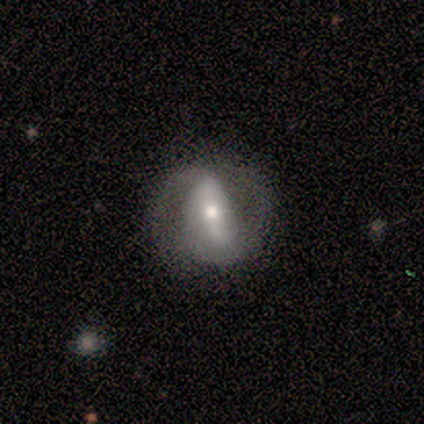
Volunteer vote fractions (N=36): Smooth or featured: featured or disk — 75% (smooth — 19%)
Edge-on disk: no — 93% (yes — 7%)
Bar: strong — 52% (weak — 36%)
Spiral arms: yes — 92% (no — 8%)
Spiral winding: medium — 43% (tied with loose — 43%)
Spiral arm count: 2 — 91% (can't tell — 9%)
Bulge size: moderate — 52% (small — 40%)
Merging: none — 62% (minor disturbance — 18%)